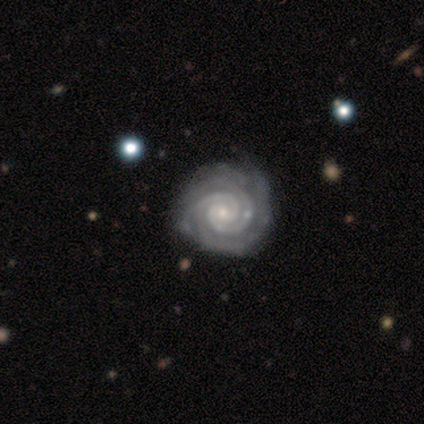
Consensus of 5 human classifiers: Smooth or featured: featured or disk — 100%
Edge-on disk: no — 100%
Bar: no — 60% (strong — 20%)
Spiral arms: yes — 100%
Spiral winding: tight — 80% (medium — 20%)
Spiral arm count: 4 — 40% (2 — 20%)
Bulge size: small — 60% (moderate — 20%)
Merging: none — 80% (minor disturbance — 20%)